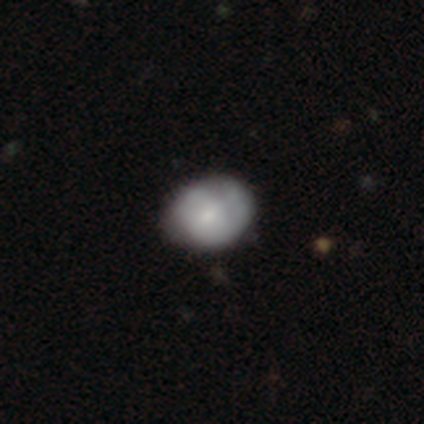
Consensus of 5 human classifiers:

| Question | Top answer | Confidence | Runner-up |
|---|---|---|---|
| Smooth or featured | featured or disk | 60% | smooth (40%) |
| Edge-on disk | no | 100% | — |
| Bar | weak | 67% | no (33%) |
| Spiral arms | yes | 67% | no (33%) |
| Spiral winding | medium | 100% | — |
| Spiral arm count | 2 | 50% | tied: 3 (50%) |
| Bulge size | moderate | 67% | small (33%) |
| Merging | none | 60% | minor disturbance (20%) |